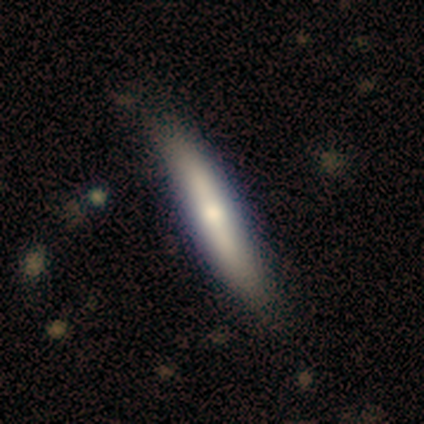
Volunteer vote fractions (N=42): A smooth galaxy with no disk features (60%) that is cigar-shaped (92%).

Vote fractions:
- Smooth or featured? smooth: 60% / featured or disk: 33% / star or artifact: 7%
- How rounded? cigar-shaped: 92% / in between: 8% / round: 0%
- Merging? none: 85% / minor disturbance: 13% / major disturbance: 3% / merger: 0%